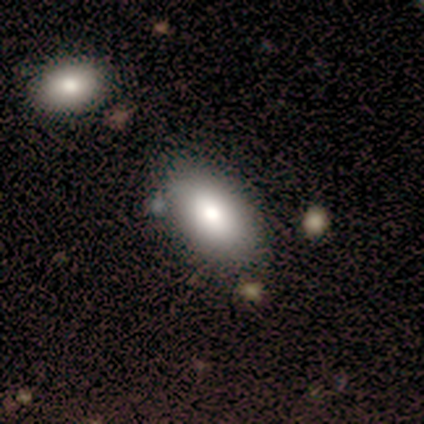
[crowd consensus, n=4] Q: Smooth or featured?
A: smooth (100%)
Q: How rounded?
A: in between (75%); runner-up: cigar-shaped (25%)
Q: Merging?
A: none (100%)